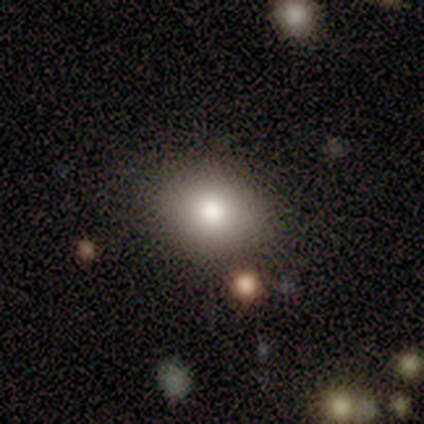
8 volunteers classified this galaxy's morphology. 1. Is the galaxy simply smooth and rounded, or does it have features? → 62% smooth, 25% featured or disk, 12% star or artifact.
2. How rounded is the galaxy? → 80% in between, 20% round, 0% cigar-shaped.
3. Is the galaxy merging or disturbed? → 71% none, 29% merger, 0% minor disturbance, 0% major disturbance.